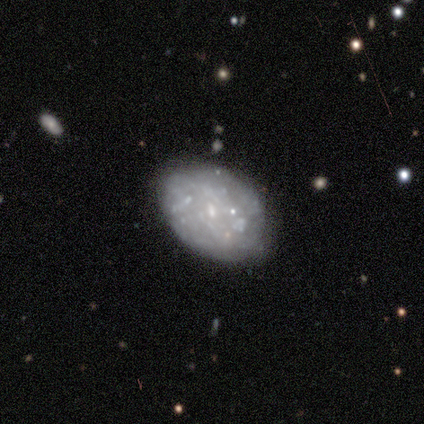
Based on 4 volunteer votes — Volunteers were most divided on "bar" (2-way tie): weak: 50%, no: 50%, strong: 0%; "spiral arms" (2-way tie): yes: 50%, no: 50%; "spiral winding" (2-way tie): tight: 50%, medium: 50%, loose: 0%; "spiral arm count" (2-way tie): more than 4: 50%, can't tell: 50%, 1: 0%, 2: 0%, 3: 0%, 4: 0%. More confident: smooth or featured — featured or disk (100%); edge-on disk — no (100%); merging — none (75%); bulge size — small (50%).